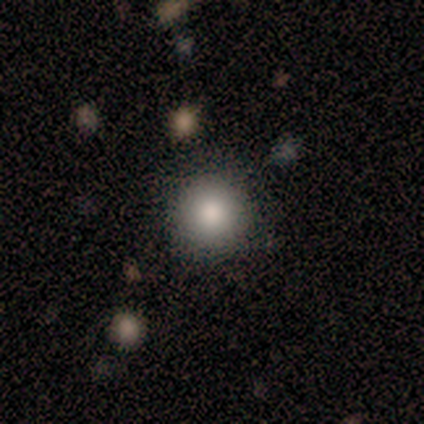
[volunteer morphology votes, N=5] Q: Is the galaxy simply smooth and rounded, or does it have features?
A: smooth — 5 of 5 (100%).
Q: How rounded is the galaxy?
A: round — 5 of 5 (100%).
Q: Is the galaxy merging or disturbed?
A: none — 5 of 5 (100%).